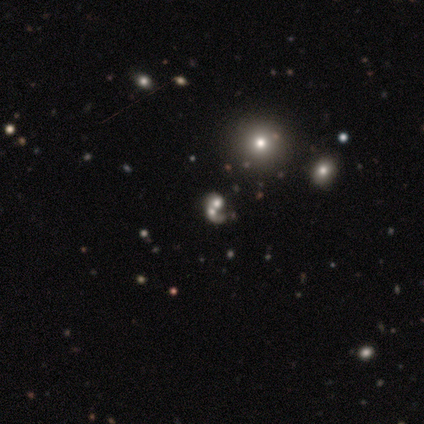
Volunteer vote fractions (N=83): This is marginally a featured or disk galaxy (42%). It is clearly not viewed edge-on (100%). Bar: clearly no (97%). Spiral arm pattern: possibly no (54%). Central bulge: marginally large (40%, tied with moderate). Merging: likely merger (70%).